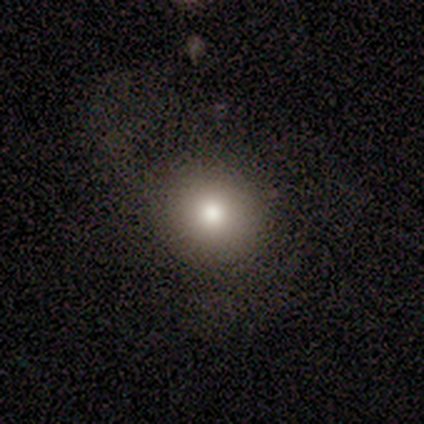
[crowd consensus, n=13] Smooth or featured?
  - smooth: 54% *
  - star or artifact: 38%
  - featured or disk: 8%
How rounded?
  - round: 100% *
  - in between: 0%
  - cigar-shaped: 0%
Merging?
  - none: 100% *
  - minor disturbance: 0%
  - major disturbance: 0%
  - merger: 0%